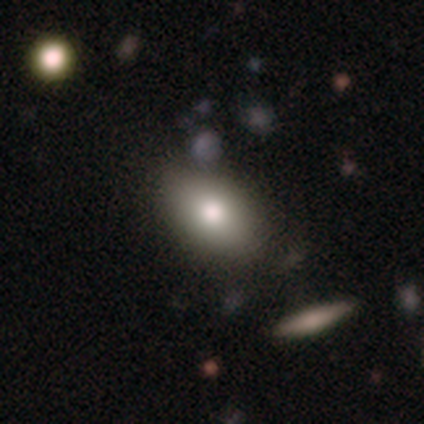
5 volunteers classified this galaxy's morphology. Overall: smooth (60%; featured or disk 40%). How rounded: in between (67%; round 33%). Merging: none (60%; minor disturbance 40%).